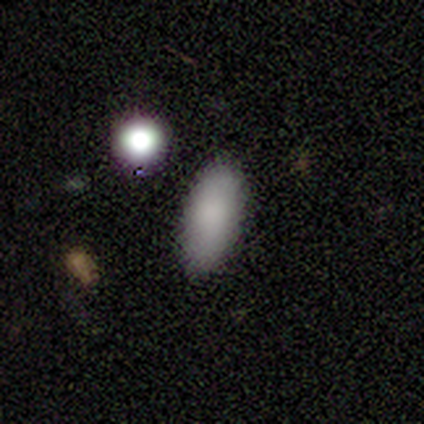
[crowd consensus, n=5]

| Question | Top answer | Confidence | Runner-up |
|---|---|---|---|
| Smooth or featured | smooth | 100% | — |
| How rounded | in between | 80% | cigar-shaped (20%) |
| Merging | none | 100% | — |